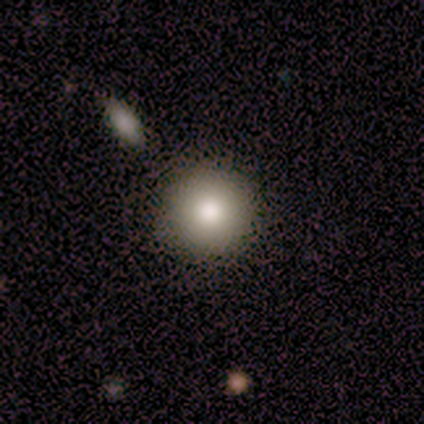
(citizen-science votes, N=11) smooth_or_featured: smooth (p=0.82) [alt: featured or disk p=0.18]
how_rounded: round (p=1.00)
merging: none (p=1.00)